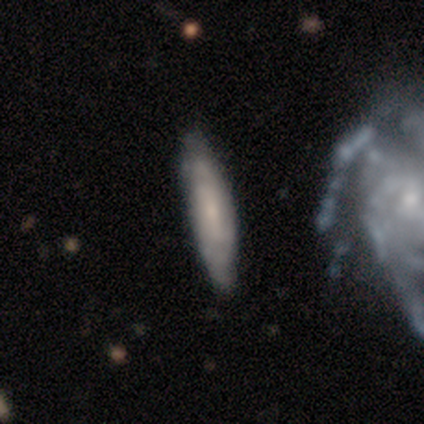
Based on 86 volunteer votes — Q: Smooth or featured?
A: featured or disk (49%); runner-up: smooth (42%)
Q: Edge-on disk?
A: no (57%); runner-up: yes (43%)
Q: Bar?
A: no (54%); runner-up: weak (42%)
Q: Spiral arms?
A: yes (83%); runner-up: no (17%)
Q: Spiral winding?
A: tight (55%); runner-up: medium (40%)
Q: Spiral arm count?
A: can't tell (65%); runner-up: 2 (25%)
Q: Bulge size?
A: small (54%); runner-up: moderate (25%)
Q: Merging?
A: none (77%); runner-up: minor disturbance (17%)